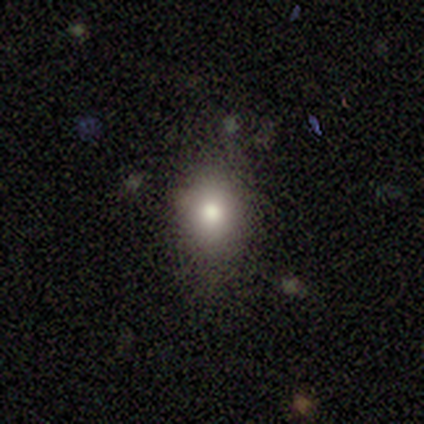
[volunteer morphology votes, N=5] smooth_or_featured: smooth (p=1.00)
how_rounded: round (p=0.60) [alt: in between p=0.40]
merging: none (p=0.80) [alt: major disturbance p=0.20]